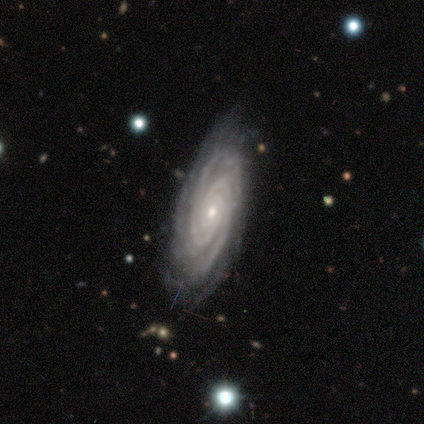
This appears to be a featured or disk galaxy (100%) with no bar (75%), 3 (67%) tight (100%) spiral arms (75%) and a small central bulge (100%). Merging: none (75%).